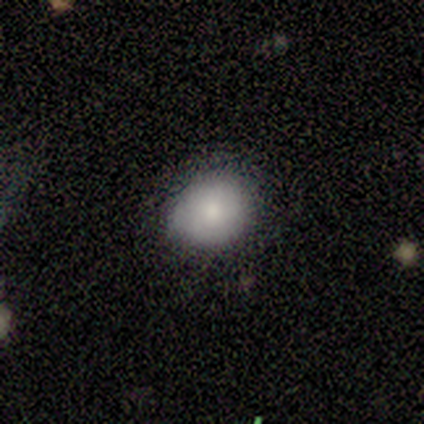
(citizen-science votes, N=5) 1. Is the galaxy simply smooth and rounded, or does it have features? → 60% smooth, 20% featured or disk, 20% star or artifact.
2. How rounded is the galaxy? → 67% round, 33% in between, 0% cigar-shaped.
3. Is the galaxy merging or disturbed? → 50% none (tied), 50% minor disturbance (tied), 0% major disturbance, 0% merger.